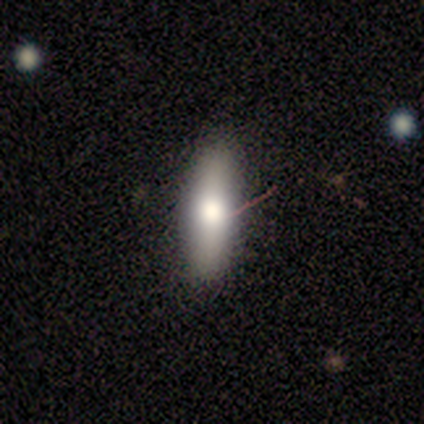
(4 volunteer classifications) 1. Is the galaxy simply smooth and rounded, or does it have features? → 100% smooth, 0% featured or disk, 0% star or artifact.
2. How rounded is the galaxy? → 75% in between, 25% cigar-shaped, 0% round.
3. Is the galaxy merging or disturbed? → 100% none, 0% minor disturbance, 0% major disturbance, 0% merger.